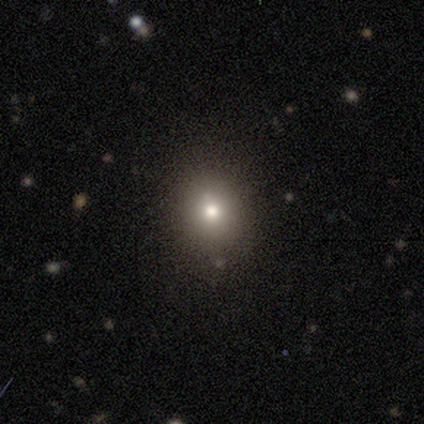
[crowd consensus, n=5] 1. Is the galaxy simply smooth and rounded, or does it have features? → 60% smooth, 40% star or artifact, 0% featured or disk.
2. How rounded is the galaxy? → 67% round, 33% in between, 0% cigar-shaped.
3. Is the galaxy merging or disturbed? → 67% none, 33% minor disturbance, 0% major disturbance, 0% merger.